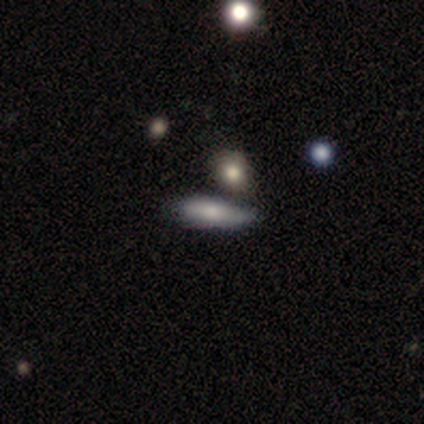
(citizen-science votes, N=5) Smooth or featured: smooth — 60% (featured or disk — 20%)
How rounded: cigar-shaped — 67% (in between — 33%)
Merging: none — 75% (merger — 25%)